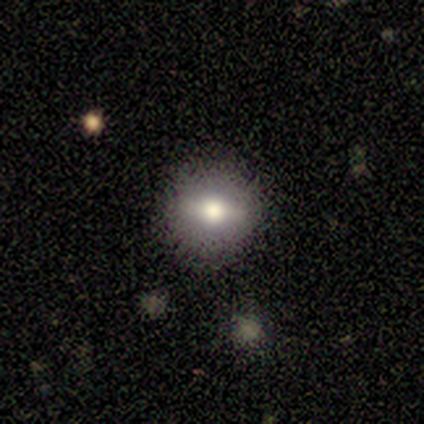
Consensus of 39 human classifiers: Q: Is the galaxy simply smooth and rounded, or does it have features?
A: smooth — 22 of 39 (56%).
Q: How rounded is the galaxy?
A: round — 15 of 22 (68%).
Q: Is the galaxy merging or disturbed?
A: none — 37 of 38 (97%).